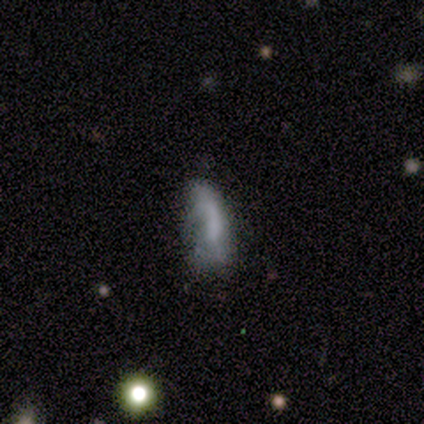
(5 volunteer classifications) Smooth or featured?
  - smooth: 40% * (tied)
  - featured or disk: 40% * (tied)
  - star or artifact: 20%
How rounded?
  - in between: 50% * (tied)
  - cigar-shaped: 50% * (tied)
  - round: 0%
Merging?
  - none: 50% * (tied)
  - minor disturbance: 50% * (tied)
  - major disturbance: 0%
  - merger: 0%